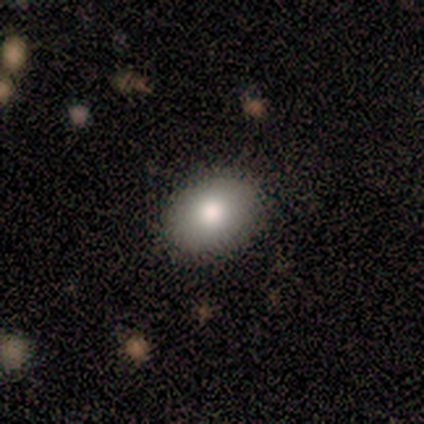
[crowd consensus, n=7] Smooth or featured? featured or disk (57%)
Edge-on disk? no (100%)
Bar? no (100%)
Spiral arms? no (100%)
Bulge size? moderate (100%)
Merging? none (100%)